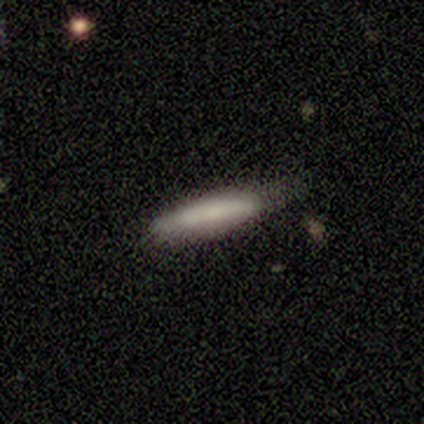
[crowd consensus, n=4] A smooth galaxy with no disk features (100%) that is cigar-shaped (100%). Merging: none (75%).